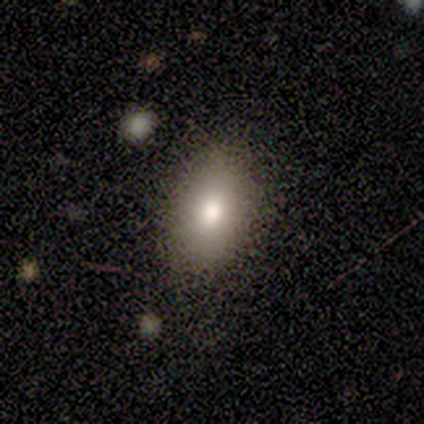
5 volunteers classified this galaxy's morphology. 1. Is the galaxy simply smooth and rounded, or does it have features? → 80% smooth, 20% featured or disk, 0% star or artifact.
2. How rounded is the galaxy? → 75% in between, 25% round, 0% cigar-shaped.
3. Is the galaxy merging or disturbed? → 60% none, 40% minor disturbance, 0% major disturbance, 0% merger.